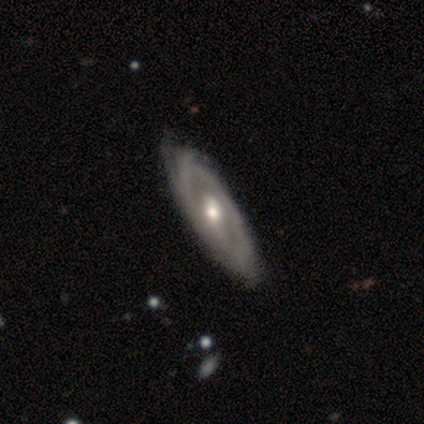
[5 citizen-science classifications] Morphology: type=featured or disk (100%); edge-on=no (100%); bar=no (60%); spiral arms=yes (80%); winding=tight (75%); arm count=1 (50%); bulge=moderate (80%); merging=none (60%).